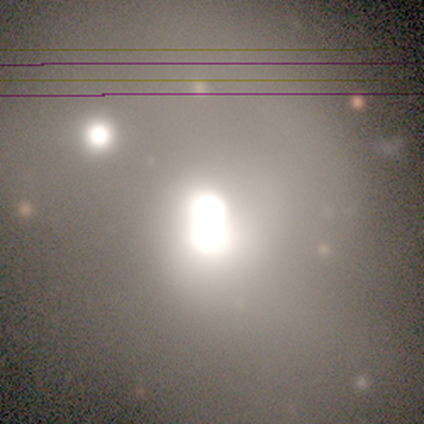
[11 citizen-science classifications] star or artifact 55%, smooth 36%, featured or disk 9%.